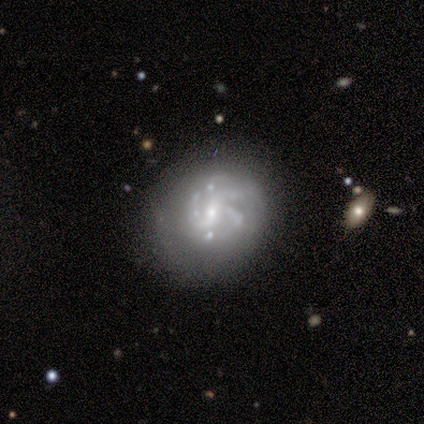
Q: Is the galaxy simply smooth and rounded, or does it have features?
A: featured or disk — 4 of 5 (80%).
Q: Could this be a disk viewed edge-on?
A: no — 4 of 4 (100%).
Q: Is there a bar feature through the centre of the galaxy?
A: weak — 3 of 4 (75%).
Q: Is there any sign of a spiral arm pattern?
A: yes — 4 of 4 (100%).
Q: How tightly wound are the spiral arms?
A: tight — 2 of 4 (50%, tied with medium).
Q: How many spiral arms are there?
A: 3 — 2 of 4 (50%, tied with 4).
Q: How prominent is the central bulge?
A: moderate — 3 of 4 (75%).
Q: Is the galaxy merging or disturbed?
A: none — 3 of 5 (60%).